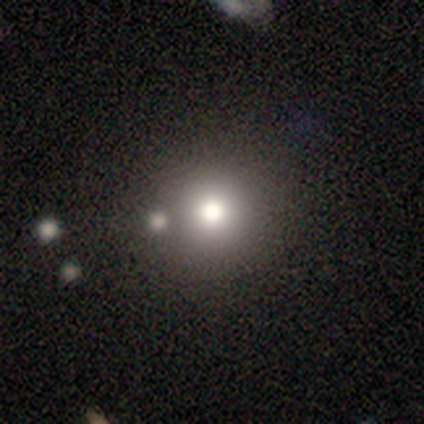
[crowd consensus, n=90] This appears to be a smooth galaxy with no disk features (63%) that is round (96%). Merging: none (82%).